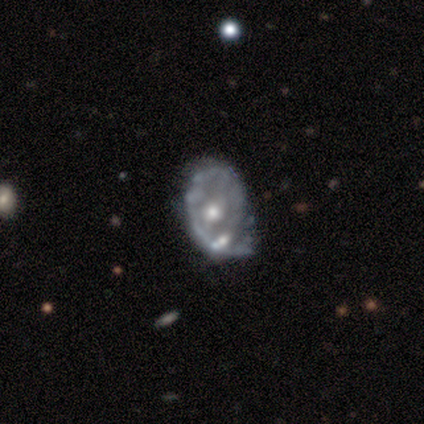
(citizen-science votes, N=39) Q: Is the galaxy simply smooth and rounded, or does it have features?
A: featured or disk — 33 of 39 (85%).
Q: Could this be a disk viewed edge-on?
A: no — 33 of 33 (100%).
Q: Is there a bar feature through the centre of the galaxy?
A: no — 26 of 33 (79%).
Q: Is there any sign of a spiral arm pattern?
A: no — 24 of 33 (73%).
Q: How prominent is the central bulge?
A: moderate — 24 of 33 (73%).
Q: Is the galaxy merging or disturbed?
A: minor disturbance — 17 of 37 (46%).